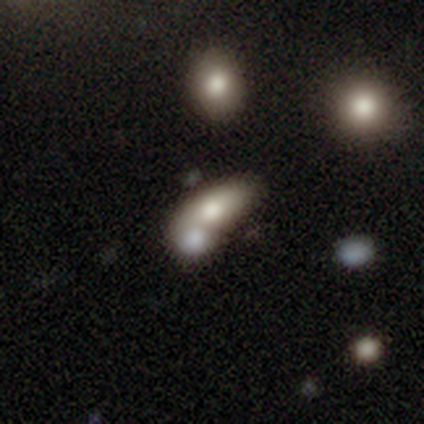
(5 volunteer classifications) Smooth or featured? smooth (60%)
How rounded? in between (100%)
Merging? merger (100%)